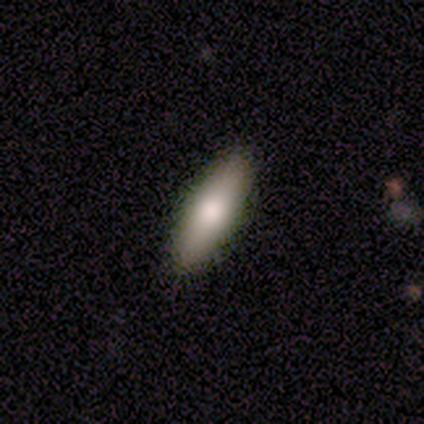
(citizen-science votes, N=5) A smooth galaxy with no disk features (60%) that is in between round and cigar-shaped (67%).

Vote fractions:
- Smooth or featured? smooth: 60% / featured or disk: 20% / star or artifact: 20%
- How rounded? in between: 67% / cigar-shaped: 33% / round: 0%
- Merging? none: 100% / minor disturbance: 0% / major disturbance: 0% / merger: 0%